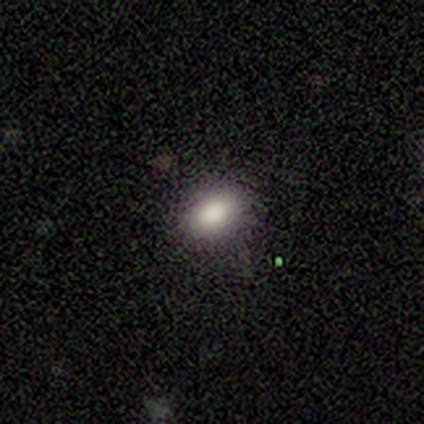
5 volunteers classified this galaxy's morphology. type=smooth (80%); roundness=round (75%); merging=none (80%).